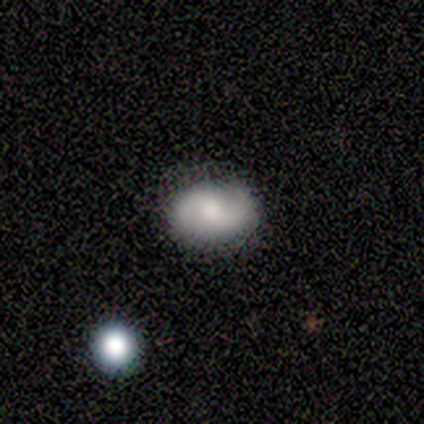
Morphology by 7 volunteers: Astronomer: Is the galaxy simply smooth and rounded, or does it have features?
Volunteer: smooth — 71%.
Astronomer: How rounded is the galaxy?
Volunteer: in between — 100%.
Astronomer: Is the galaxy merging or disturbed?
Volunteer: none — 86%.